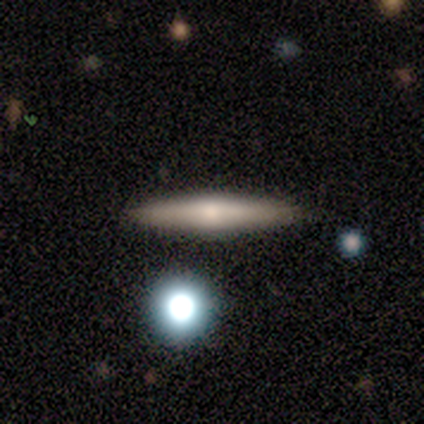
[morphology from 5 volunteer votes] Smooth or featured? 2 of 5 (40%, tied with featured or disk) said smooth. How rounded? 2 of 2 (100%) said cigar-shaped. Merging? 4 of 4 (100%) said none.